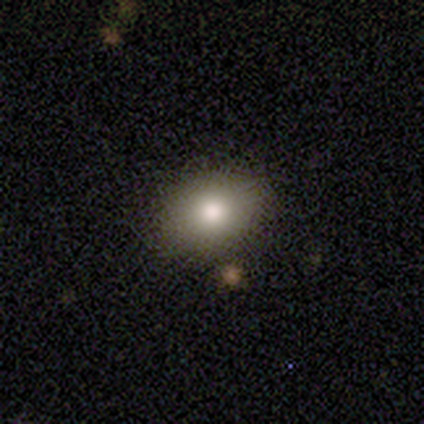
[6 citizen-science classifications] smooth 83%, star or artifact 17%, featured or disk 0%. Down the decision tree: how rounded — in between (100%); merging — none (80%).